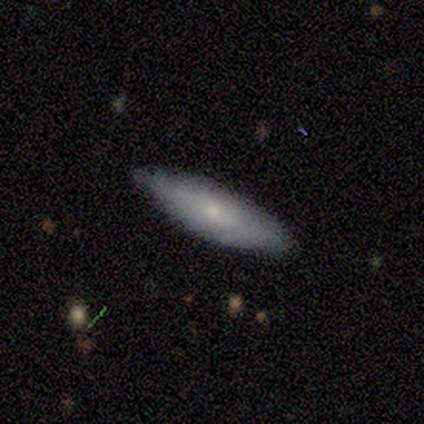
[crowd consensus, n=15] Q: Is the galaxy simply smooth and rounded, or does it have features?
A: smooth — 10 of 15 (67%).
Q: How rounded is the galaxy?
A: in between — 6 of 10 (60%).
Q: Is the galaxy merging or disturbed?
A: none — 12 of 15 (80%).